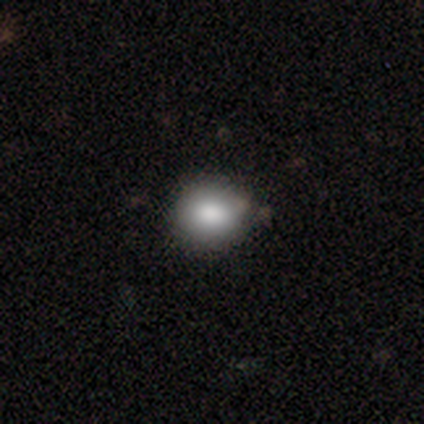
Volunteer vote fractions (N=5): Smooth or featured? 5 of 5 (100%) said smooth. How rounded? 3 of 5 (60%) said round. Merging? 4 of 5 (80%) said none.